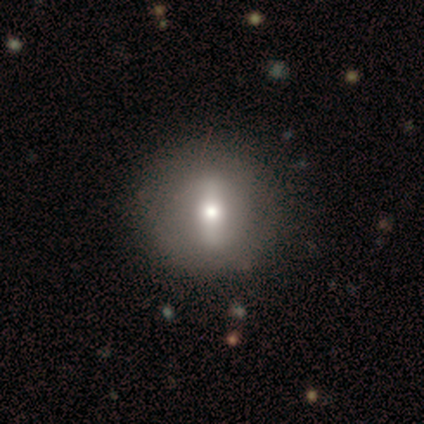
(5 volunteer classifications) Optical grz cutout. It shows a featured or disk galaxy (60%) with a strong bar (100%), no spiral arms (67%) and a moderate central bulge (100%). Merging: none (100%).